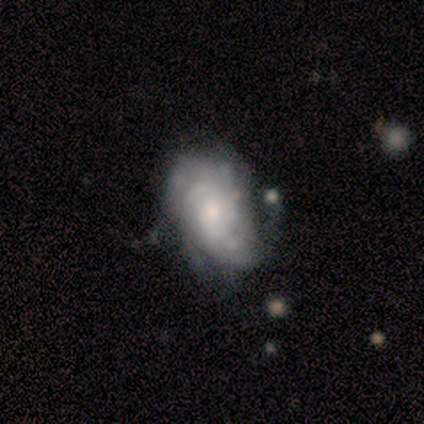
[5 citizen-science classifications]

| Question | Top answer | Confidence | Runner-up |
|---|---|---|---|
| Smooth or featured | featured or disk | 100% | — |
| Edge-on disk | no | 100% | — |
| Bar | weak | 60% | no (40%) |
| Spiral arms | yes | 100% | — |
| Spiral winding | medium | 60% | tight (20%) |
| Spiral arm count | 2 | 40% | 1 (20%) |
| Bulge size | small | 80% | moderate (20%) |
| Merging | none | 40% | tied: minor disturbance (40%) |